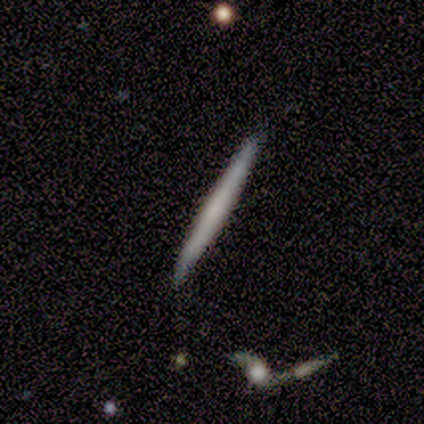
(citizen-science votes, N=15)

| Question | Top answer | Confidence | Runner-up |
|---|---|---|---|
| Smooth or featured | smooth | 53% | featured or disk (47%) |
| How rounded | cigar-shaped | 100% | — |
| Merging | none | 87% | minor disturbance (7%) |